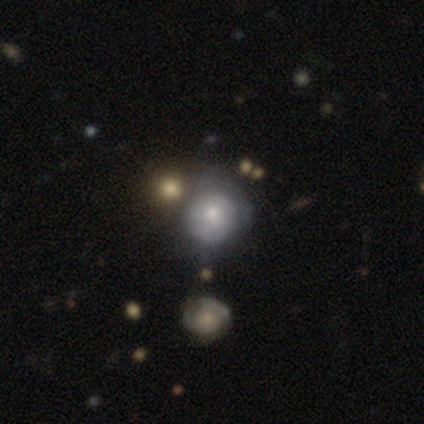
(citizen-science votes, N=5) A featured or disk galaxy (60%) with no bar (100%), 2 (50%, tied with more than 4) medium (50%, tied with loose) spiral arms (67%) and a small central bulge (67%).

Vote fractions:
- Smooth or featured? featured or disk: 60% / smooth: 20% / star or artifact: 20%
- Edge-on disk? no: 100% / yes: 0%
- Bar? no: 100% / strong: 0% / weak: 0%
- Spiral arms? yes: 67% / no: 33%
- Spiral winding? medium: 50% (tied) / loose: 50% (tied) / tight: 0%
- Spiral arm count? 2: 50% (tied) / more than 4: 50% (tied) / 1: 0% / 3: 0% / 4: 0% / can't tell: 0%
- Bulge size? small: 67% / moderate: 33% / dominant: 0% / large: 0% / none: 0%
- Merging? none: 50% / minor disturbance: 25% / major disturbance: 25% / merger: 0%